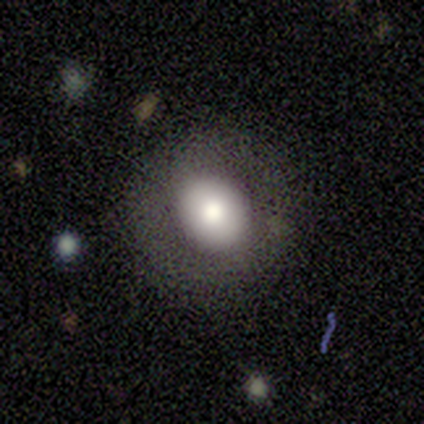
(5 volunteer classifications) Morphology: type=smooth (60%); roundness=round (67%); merging=none (75%).